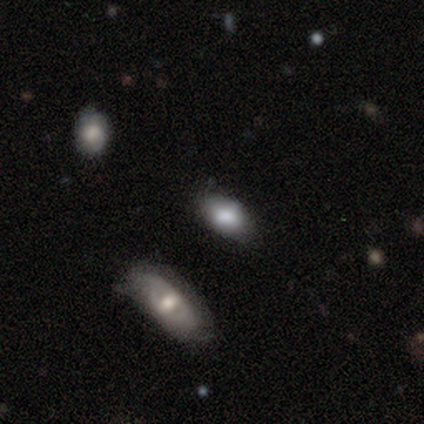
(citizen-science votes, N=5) This appears to be a smooth galaxy with no disk features (40%, tied with featured or disk) that is in between round and cigar-shaped (100%). Merging: none (100%).